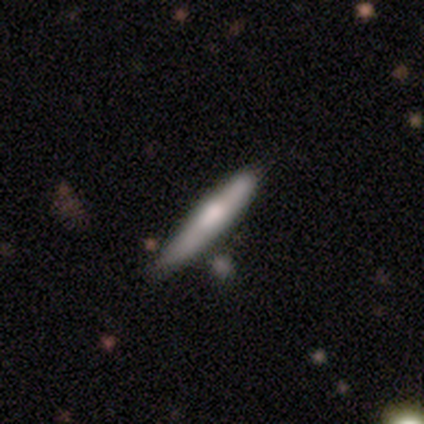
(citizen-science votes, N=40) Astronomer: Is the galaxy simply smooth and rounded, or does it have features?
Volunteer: featured or disk — 50% (runner-up: smooth, 48%).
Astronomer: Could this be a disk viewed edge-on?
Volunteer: yes — 90%.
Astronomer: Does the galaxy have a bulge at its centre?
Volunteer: rounded — 56%.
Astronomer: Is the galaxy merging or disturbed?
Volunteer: none — 49%.